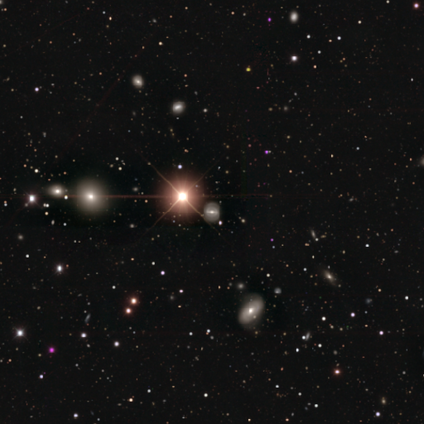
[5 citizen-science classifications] Smooth or featured: star or artifact — 60% (smooth — 20%)